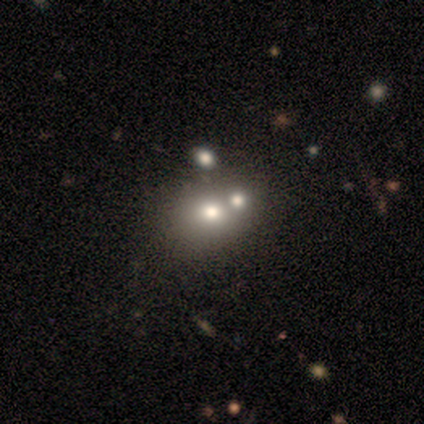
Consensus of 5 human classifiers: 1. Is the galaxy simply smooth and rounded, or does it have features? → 80% smooth, 20% featured or disk, 0% star or artifact.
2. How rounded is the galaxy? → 75% round, 25% in between, 0% cigar-shaped.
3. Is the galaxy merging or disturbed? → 80% merger, 20% none, 0% minor disturbance, 0% major disturbance.